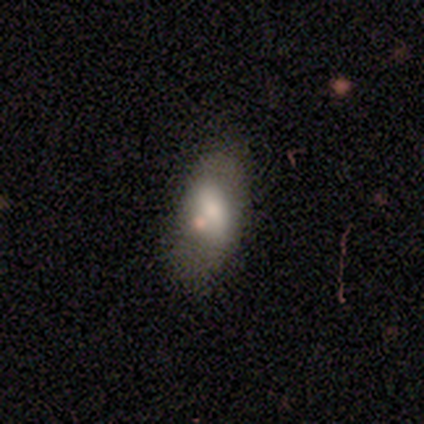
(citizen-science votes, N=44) This is likely a smooth galaxy (68%). How rounded: clearly in between (80%). Merging: possibly none (49%).